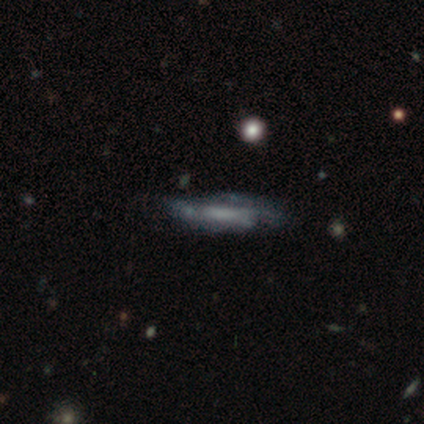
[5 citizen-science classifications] Smooth or featured: smooth — 60% (featured or disk — 20%)
How rounded: cigar-shaped — 100%
Merging: none — 50% (minor disturbance — 25%)